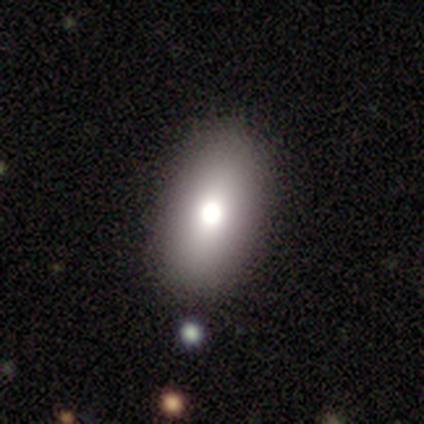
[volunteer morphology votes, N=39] smooth_or_featured: smooth (p=0.69) [alt: featured or disk p=0.23]
how_rounded: in between (p=0.81) [alt: round p=0.11]
merging: none (p=0.83) [alt: minor disturbance p=0.11]